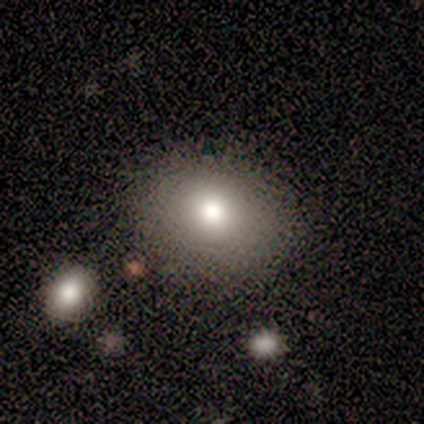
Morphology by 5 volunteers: Smooth or featured? smooth (100%)
How rounded? in between (60%)
Merging? none (60%)